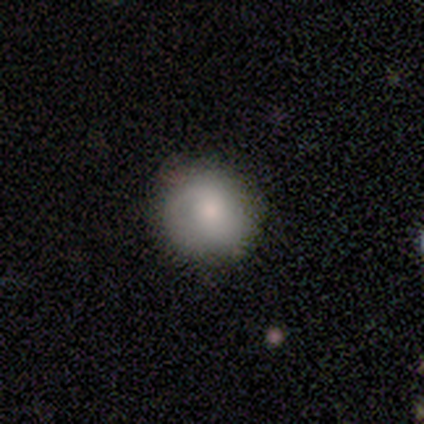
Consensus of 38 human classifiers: smooth-or-featured: smooth: 68% | featured or disk: 29% | star or artifact: 3%
  how-rounded: round: 92% | in between: 8% | cigar-shaped: 0%
  merging: none: 68% | minor disturbance: 27% | major disturbance: 5% | merger: 0%